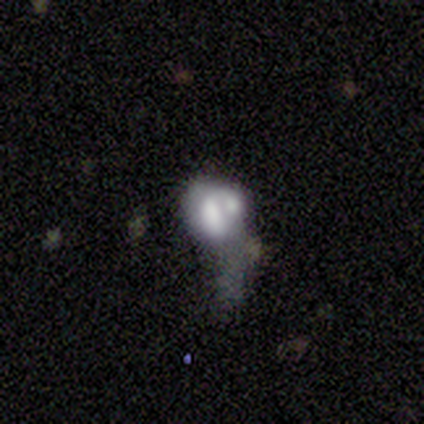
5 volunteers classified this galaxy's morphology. Smooth or featured?
  - smooth: 40% * (tied)
  - featured or disk: 40% * (tied)
  - star or artifact: 20%
How rounded?
  - round: 50% * (tied)
  - in between: 50% * (tied)
  - cigar-shaped: 0%
Merging?
  - merger: 50% *
  - none: 25%
  - minor disturbance: 25%
  - major disturbance: 0%